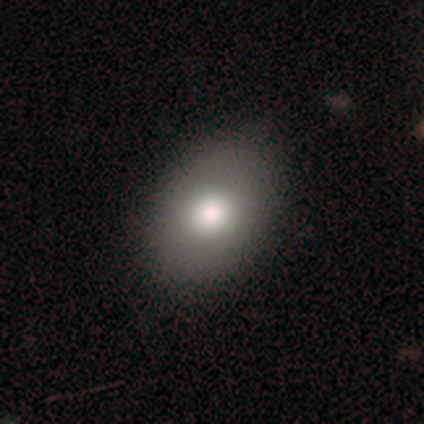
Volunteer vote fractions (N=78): A smooth galaxy with no disk features (74%) that is in between round and cigar-shaped (74%).

Vote fractions:
- Smooth or featured? smooth: 74% / featured or disk: 23% / star or artifact: 3%
- How rounded? in between: 74% / round: 26% / cigar-shaped: 0%
- Merging? none: 41% / minor disturbance: 9% / major disturbance: 1% / merger: 0%